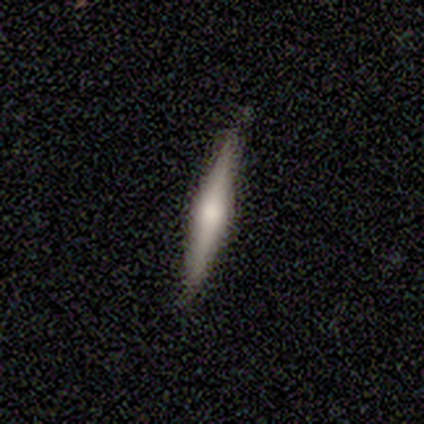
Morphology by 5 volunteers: A featured or disk galaxy (60%) viewed edge-on (100%) with a rounded central bulge (100%). Merging: none (80%).